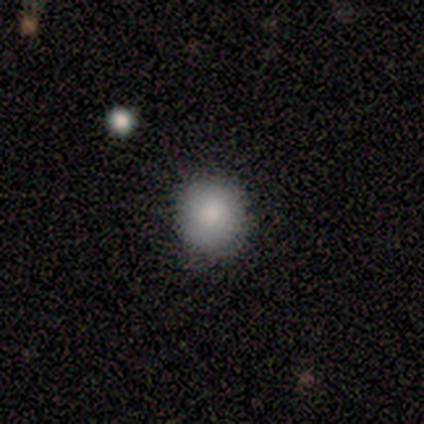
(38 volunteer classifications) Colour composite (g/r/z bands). It shows a smooth galaxy with no disk features (74%) that is round (89%). Merging: none (77%).